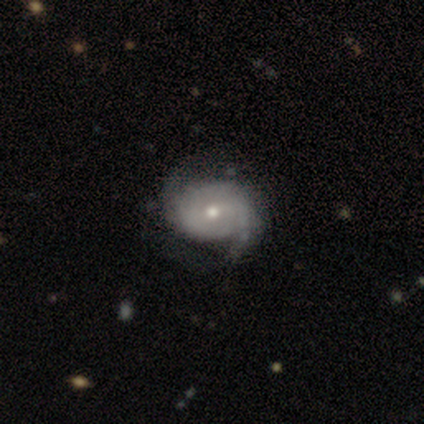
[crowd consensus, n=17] Overall: featured or disk (94%). Edge-on disk: no (100%). Bar: no (75%). Spiral arms: yes (94%). Spiral arm count: 2 (93%). Spiral winding: medium (47%; tight 33%). Bulge size: moderate (56%; small 38%). Merging: none (82%).